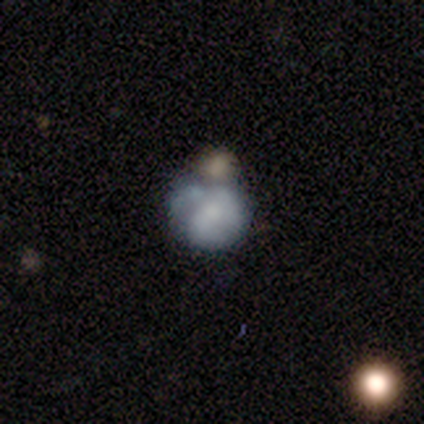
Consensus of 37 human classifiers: smooth-or-featured: smooth: 51% | featured or disk: 43% | star or artifact: 5%
  how-rounded: round: 79% | in between: 21% | cigar-shaped: 0%
  merging: merger: 40% | none: 34% | minor disturbance: 17% | major disturbance: 9%